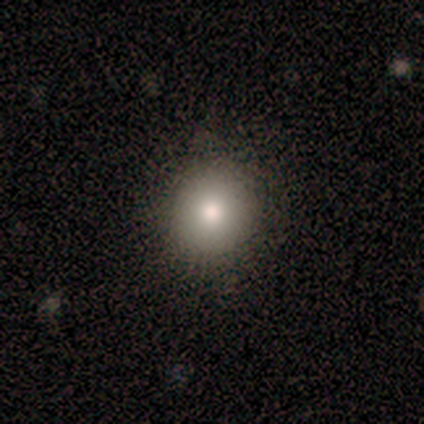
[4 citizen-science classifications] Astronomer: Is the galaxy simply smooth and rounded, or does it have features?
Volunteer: smooth — 75%.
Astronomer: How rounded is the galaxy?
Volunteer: round — 100%.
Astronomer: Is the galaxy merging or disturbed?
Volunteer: none — 75%.